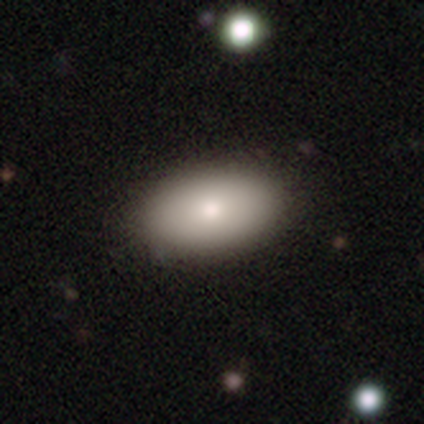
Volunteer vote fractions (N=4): Smooth or featured: smooth — 100%
How rounded: in between — 75% (round — 25%)
Merging: none — 75% (merger — 25%)